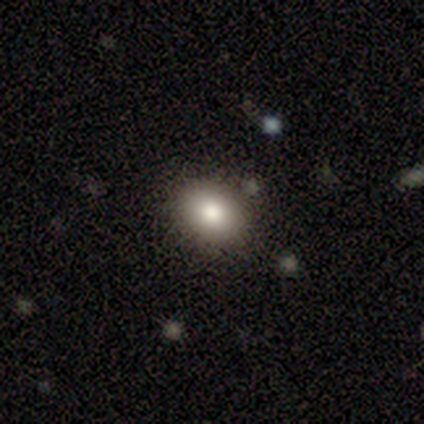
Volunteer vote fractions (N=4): A star or artifact, not a galaxy (50%).

Vote fractions:
- Smooth or featured? star or artifact: 50% / smooth: 25% / featured or disk: 25%